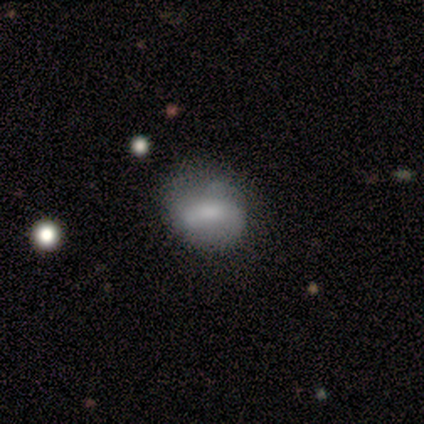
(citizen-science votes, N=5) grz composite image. It shows a smooth galaxy with no disk features (60%) that is in between round and cigar-shaped (67%). Merging: minor disturbance (75%).